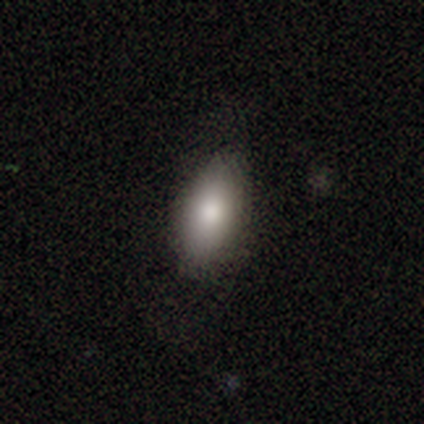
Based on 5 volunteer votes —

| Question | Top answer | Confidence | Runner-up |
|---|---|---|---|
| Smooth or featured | smooth | 80% | star or artifact (20%) |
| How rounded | in between | 100% | — |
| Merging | none | 75% | minor disturbance (25%) |